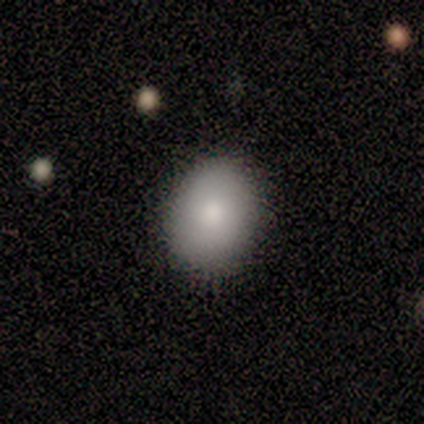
Smooth or featured: smooth — 82% (featured or disk — 18%)
How rounded: in between — 78% (round — 22%)
Merging: none — 91% (minor disturbance — 9%)